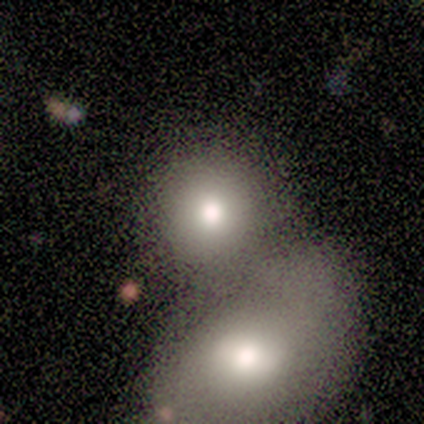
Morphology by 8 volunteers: A smooth galaxy with no disk features (75%) that is round (83%).

Vote fractions:
- Smooth or featured? smooth: 75% / featured or disk: 12% / star or artifact: 12%
- How rounded? round: 83% / in between: 17% / cigar-shaped: 0%
- Merging? merger: 57% / none: 43% / minor disturbance: 0% / major disturbance: 0%